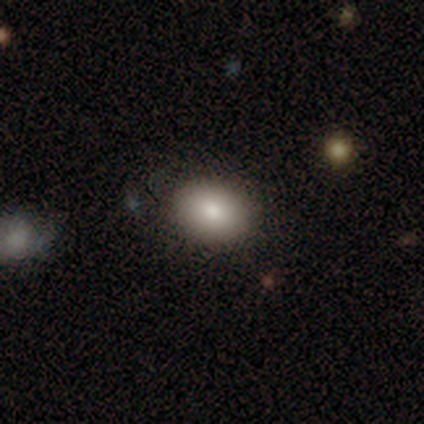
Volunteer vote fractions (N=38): Smooth or featured?
  - smooth: 92% *
  - featured or disk: 5%
  - star or artifact: 3%
How rounded?
  - in between: 77% *
  - round: 23%
  - cigar-shaped: 0%
Merging?
  - none: 86% *
  - minor disturbance: 14%
  - major disturbance: 0%
  - merger: 0%